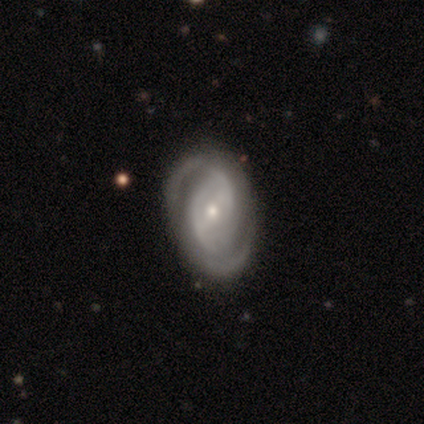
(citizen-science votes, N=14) A featured or disk galaxy (64%) with a weak bar (44%), 2 (78%) tight (44%) spiral arms (100%) and a small central bulge (78%).

Vote fractions:
- Smooth or featured? featured or disk: 64% / smooth: 21% / star or artifact: 14%
- Edge-on disk? no: 100% / yes: 0%
- Bar? weak: 44% / no: 33% / strong: 22%
- Spiral arms? yes: 100% / no: 0%
- Spiral winding? tight: 44% / medium: 33% / loose: 22%
- Spiral arm count? 2: 78% / 3: 11% / can't tell: 11% / 1: 0% / 4: 0% / more than 4: 0%
- Bulge size? small: 78% / moderate: 11% / none: 11% / dominant: 0% / large: 0%
- Merging? none: 83% / minor disturbance: 8% / major disturbance: 8% / merger: 0%